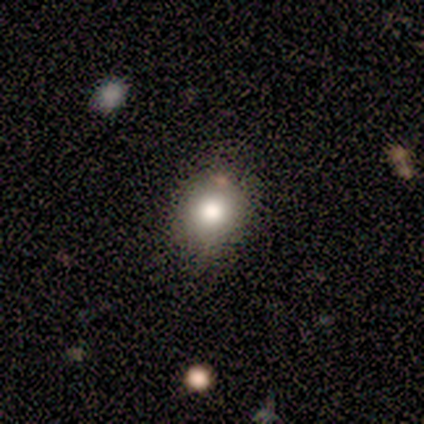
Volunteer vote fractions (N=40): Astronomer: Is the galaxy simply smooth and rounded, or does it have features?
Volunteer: smooth — 85%.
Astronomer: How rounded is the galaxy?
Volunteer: round — 79%.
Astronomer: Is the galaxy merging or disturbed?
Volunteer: none — 76%.